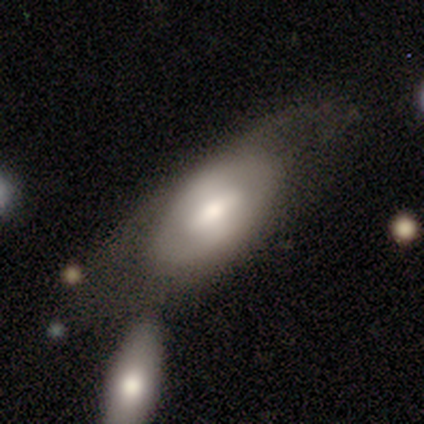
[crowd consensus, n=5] Smooth or featured? featured or disk (60%)
Edge-on disk? no (67%)
Bar? strong (50%, tied with no)
Spiral arms? no (100%)
Bulge size? moderate (100%)
Merging? none (40%, tied with minor disturbance)